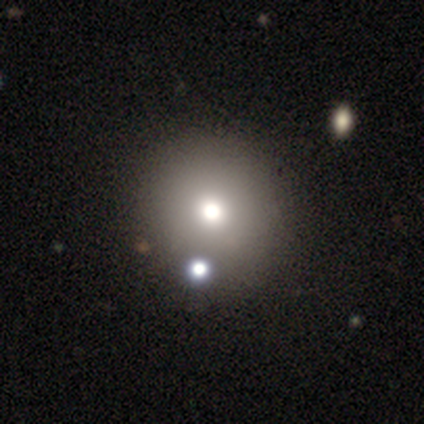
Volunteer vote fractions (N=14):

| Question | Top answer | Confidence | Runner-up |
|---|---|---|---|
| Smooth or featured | smooth | 57% | featured or disk (21%) |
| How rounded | round | 100% | — |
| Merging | none | 73% | minor disturbance (18%) |